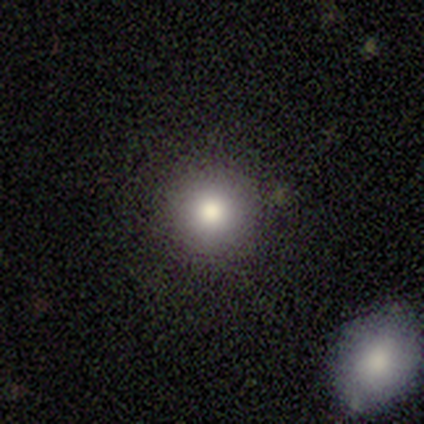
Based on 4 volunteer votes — This is clearly a smooth galaxy (100%). How rounded: clearly round (100%). Merging: clearly none (100%).